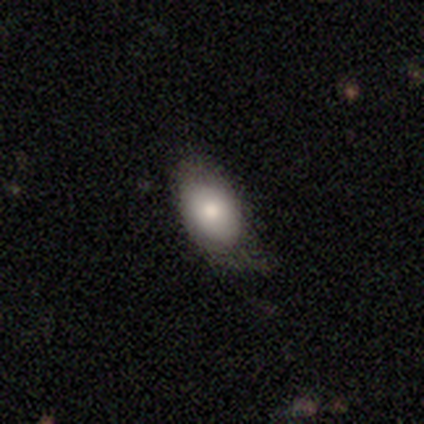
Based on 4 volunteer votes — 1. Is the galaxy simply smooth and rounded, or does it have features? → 100% smooth, 0% featured or disk, 0% star or artifact.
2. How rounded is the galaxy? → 100% in between, 0% round, 0% cigar-shaped.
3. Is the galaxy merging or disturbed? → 75% none, 25% minor disturbance, 0% major disturbance, 0% merger.